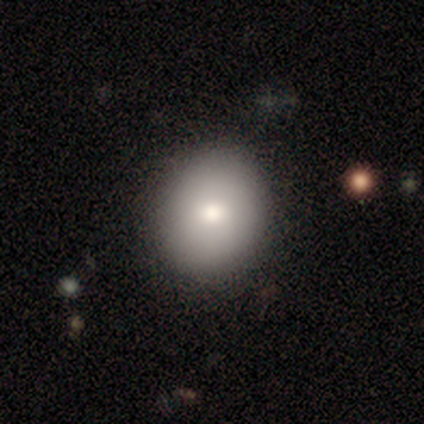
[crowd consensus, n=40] Smooth or featured? 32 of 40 (80%) said smooth. How rounded? 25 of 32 (78%) said round. Merging? 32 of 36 (89%) said none.